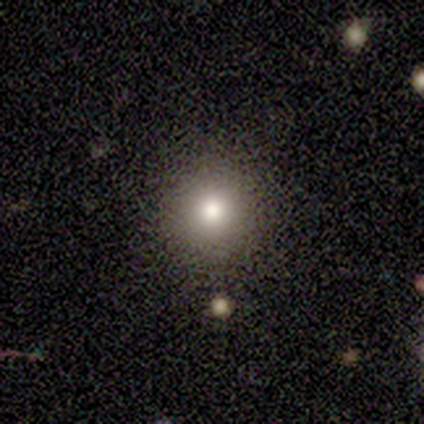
Smooth or featured?
  - smooth: 83% *
  - featured or disk: 17%
  - star or artifact: 0%
How rounded?
  - round: 100% *
  - in between: 0%
  - cigar-shaped: 0%
Merging?
  - none: 100% *
  - minor disturbance: 0%
  - major disturbance: 0%
  - merger: 0%